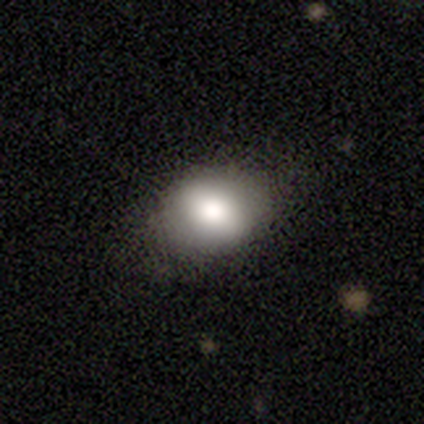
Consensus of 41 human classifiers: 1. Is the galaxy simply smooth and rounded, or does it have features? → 85% smooth, 7% featured or disk, 7% star or artifact.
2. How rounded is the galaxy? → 74% in between, 26% round, 0% cigar-shaped.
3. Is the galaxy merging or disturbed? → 89% none, 11% minor disturbance, 0% major disturbance, 0% merger.